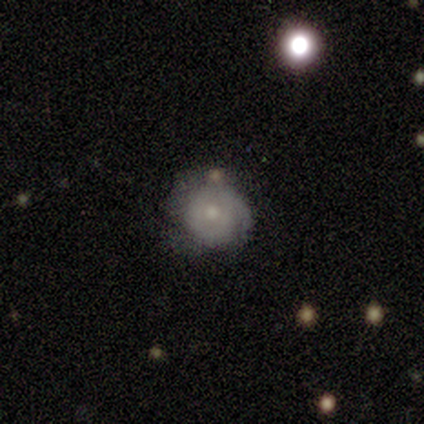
smooth-or-featured: smooth: 100% | featured or disk: 0% | star or artifact: 0%
  how-rounded: round: 100% | in between: 0% | cigar-shaped: 0%
  merging: none: 100% | minor disturbance: 0% | major disturbance: 0% | merger: 0%